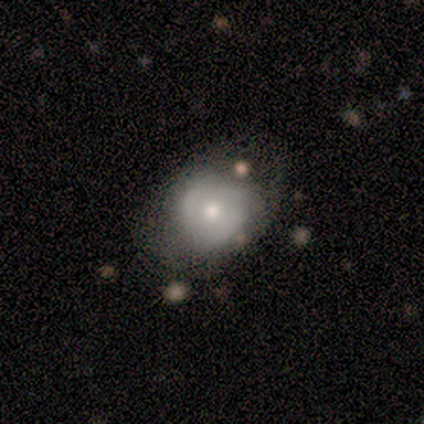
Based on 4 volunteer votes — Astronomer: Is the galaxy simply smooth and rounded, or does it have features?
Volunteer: smooth — 100%.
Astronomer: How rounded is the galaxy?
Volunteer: round — 100%.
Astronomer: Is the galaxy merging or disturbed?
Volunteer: none — 50%, tied with minor disturbance at 50%.